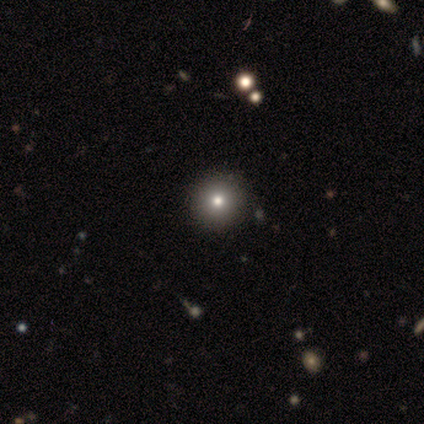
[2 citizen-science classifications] smooth_or_featured: smooth (p=0.50) [tied with: star or artifact p=0.50]
how_rounded: round (p=1.00)
merging: none (p=1.00)